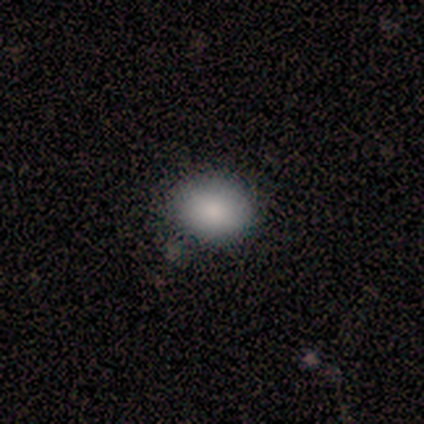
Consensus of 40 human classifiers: Smooth or featured: smooth — 82% (featured or disk — 10%)
How rounded: in between — 55% (round — 45%)
Merging: none — 86% (minor disturbance — 14%)